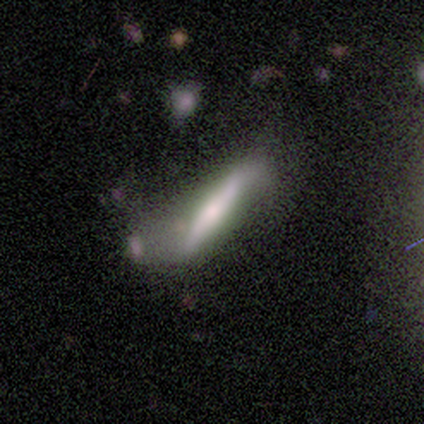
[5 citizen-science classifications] featured or disk 60%, smooth 20%, star or artifact 20%. Down the decision tree: edge-on disk — no (67%); bar — strong (50%, tied with weak); spiral arms — yes (100%); spiral arm count — 2 (100%); spiral winding — loose (100%); bulge size — moderate (50%, tied with small); merging — none (25%, tied with minor disturbance, major disturbance and merger).